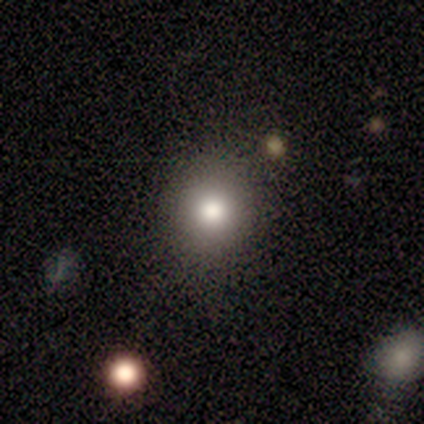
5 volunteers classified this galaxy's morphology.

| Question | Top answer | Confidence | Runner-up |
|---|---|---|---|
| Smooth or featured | smooth | 80% | featured or disk (20%) |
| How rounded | round | 100% | — |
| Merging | none | 100% | — |